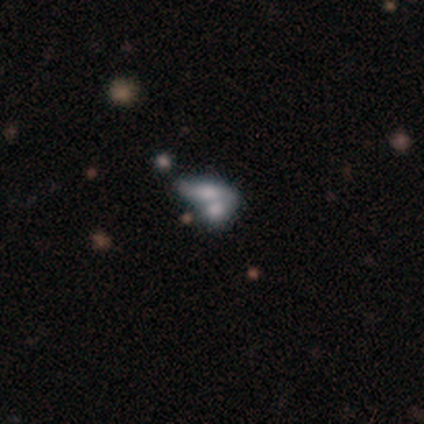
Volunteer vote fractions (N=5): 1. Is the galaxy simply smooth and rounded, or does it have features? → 60% smooth, 20% featured or disk, 20% star or artifact.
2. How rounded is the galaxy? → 67% in between, 33% cigar-shaped, 0% round.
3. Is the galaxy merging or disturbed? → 100% merger, 0% none, 0% minor disturbance, 0% major disturbance.